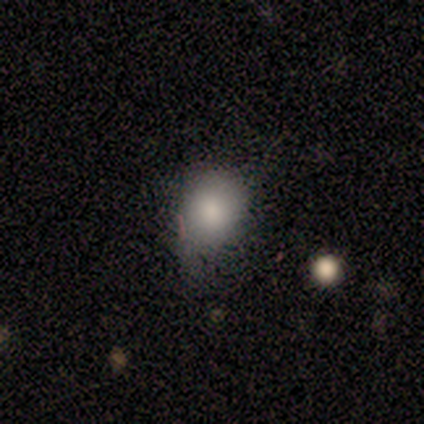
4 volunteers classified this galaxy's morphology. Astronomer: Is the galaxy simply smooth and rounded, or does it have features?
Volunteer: smooth — 100%.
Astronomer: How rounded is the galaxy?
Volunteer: round — 100%.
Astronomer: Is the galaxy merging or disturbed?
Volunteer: none — 75%.